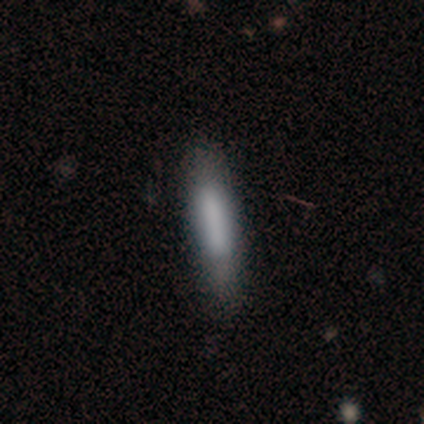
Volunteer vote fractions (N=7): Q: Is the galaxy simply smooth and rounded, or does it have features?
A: smooth — 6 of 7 (86%).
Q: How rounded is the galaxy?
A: cigar-shaped — 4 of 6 (67%).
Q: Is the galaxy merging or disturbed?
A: none — 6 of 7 (86%).